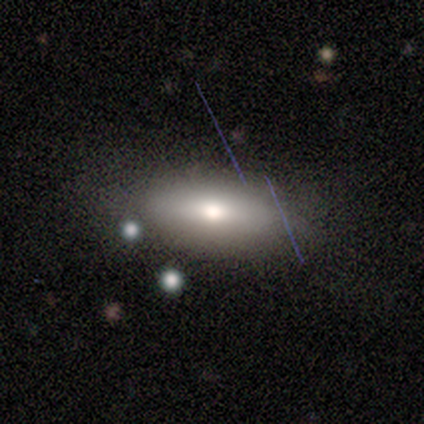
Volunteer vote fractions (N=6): This appears to be a smooth galaxy with no disk features (100%) that is in between round and cigar-shaped (100%). Merging: none (50%).